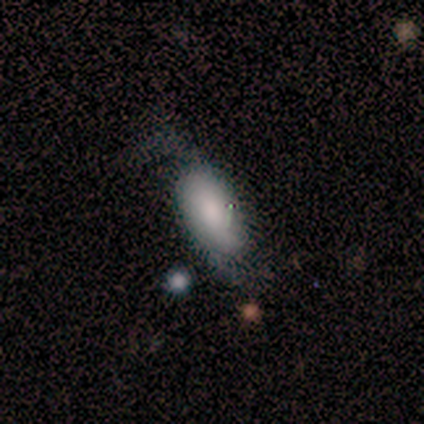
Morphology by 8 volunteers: This appears to be a smooth galaxy with no disk features (50%) that is in between round and cigar-shaped (75%). Merging: none (71%).